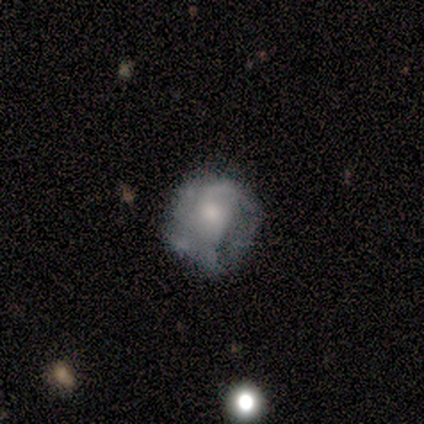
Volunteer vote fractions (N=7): Morphology: type=featured or disk (71%); edge-on=no (100%); bar=no (100%); spiral arms=no (60%); bulge=moderate (60%); merging=none (43%, tied with major disturbance).